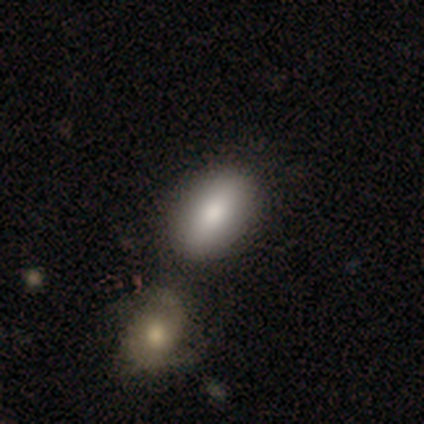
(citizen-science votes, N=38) A smooth galaxy with no disk features (87%) that is in between round and cigar-shaped (88%).

Vote fractions:
- Smooth or featured? smooth: 87% / featured or disk: 13% / star or artifact: 0%
- How rounded? in between: 88% / cigar-shaped: 9% / round: 3%
- Merging? merger: 47% / none: 26% / minor disturbance: 8% / major disturbance: 0%